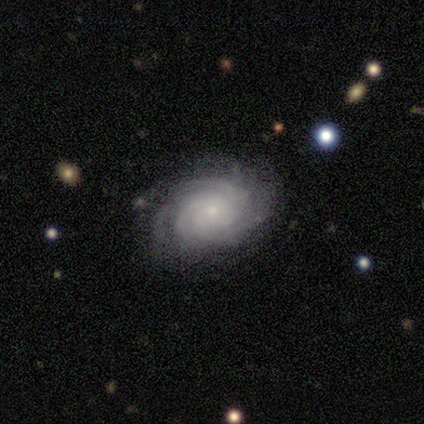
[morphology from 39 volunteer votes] Overall: featured or disk (97%). Edge-on disk: no (100%). Bar: no (84%). Spiral arms: yes (97%). Spiral arm count: more than 4 (35%; can't tell 32%). Spiral winding: tight (76%). Bulge size: small (89%). Merging: none (95%).